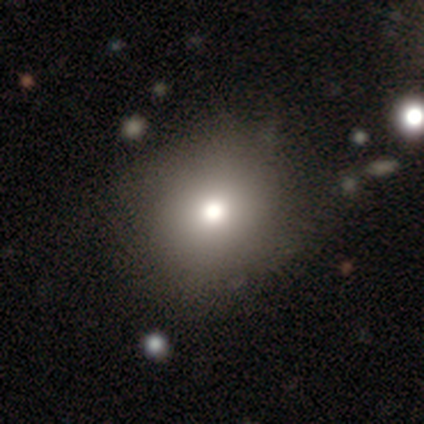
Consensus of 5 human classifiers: Q: Smooth or featured?
A: smooth (80%); runner-up: featured or disk (20%)
Q: How rounded?
A: round (100%)
Q: Merging?
A: none (100%)